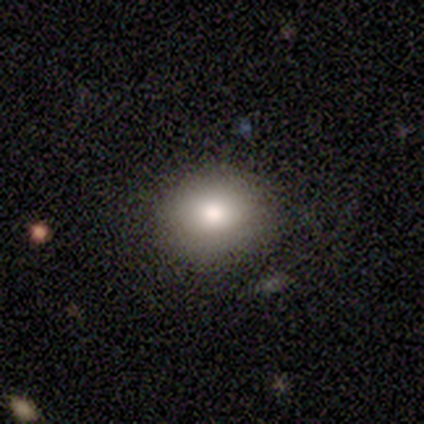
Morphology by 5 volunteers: Smooth or featured? 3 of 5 (60%) said star or artifact.